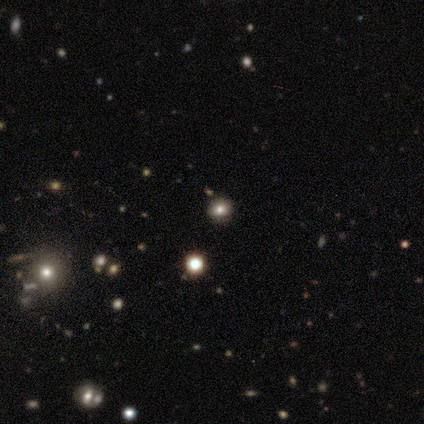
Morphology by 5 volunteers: A smooth galaxy with no disk features (60%) that is round (67%).

Vote fractions:
- Smooth or featured? smooth: 60% / star or artifact: 40% / featured or disk: 0%
- How rounded? round: 67% / in between: 33% / cigar-shaped: 0%
- Merging? none: 100% / minor disturbance: 0% / major disturbance: 0% / merger: 0%